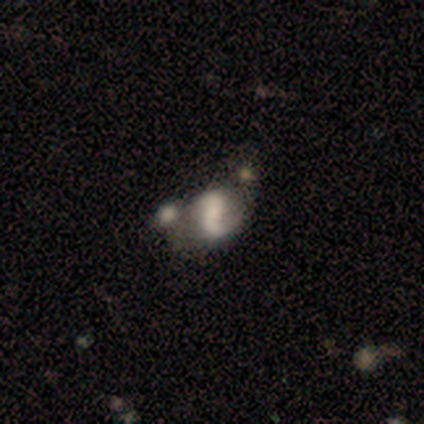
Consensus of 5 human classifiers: This is likely a featured or disk galaxy (60%). It is clearly not viewed edge-on (100%). Bar: likely strong (67%). Spiral arm pattern: clearly yes (100%). Spiral arm count: clearly 2 (100%). Spiral winding: likely loose (67%). Central bulge: likely moderate (67%). Merging: likely merger (60%).